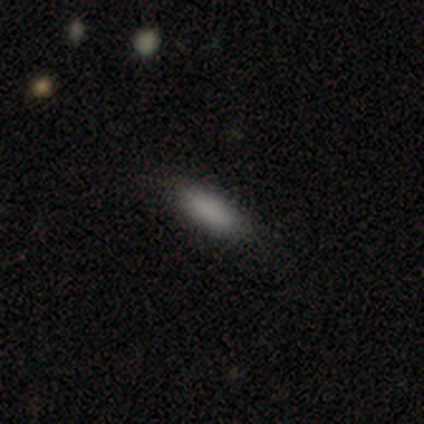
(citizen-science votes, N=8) This is clearly a smooth galaxy (100%). How rounded: clearly in between (100%). Merging: clearly none (88%).